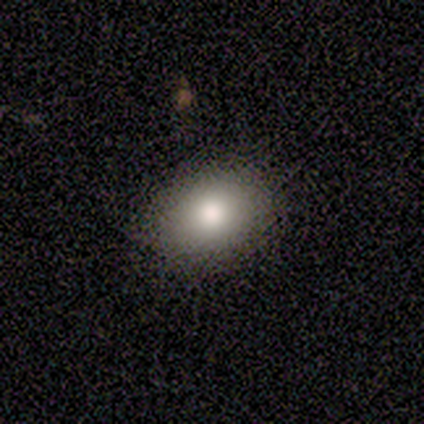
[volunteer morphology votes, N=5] smooth 100%, featured or disk 0%, star or artifact 0%. Down the decision tree: how rounded — round (60%); merging — none (100%).